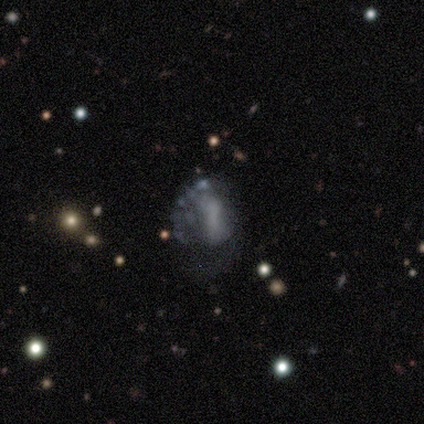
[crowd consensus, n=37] featured or disk 43%, star or artifact 30%, smooth 27%. Down the decision tree: edge-on disk — no (100%); bar — no (62%); spiral arms — no (81%); bulge size — none (81%); merging — none (46%).